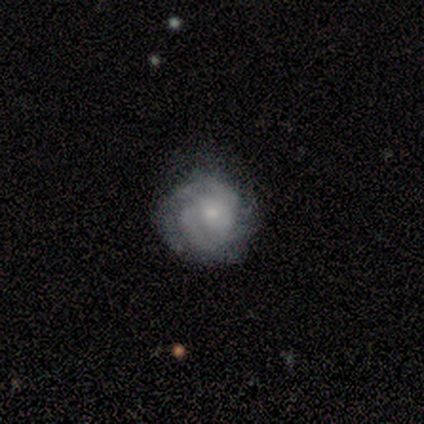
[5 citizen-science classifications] Smooth or featured? featured or disk (80%)
Edge-on disk? no (100%)
Bar? no (75%)
Spiral arms? yes (100%)
Spiral winding? tight (50%, tied with medium)
Spiral arm count? can't tell (50%)
Bulge size? small (75%)
Merging? minor disturbance (60%)